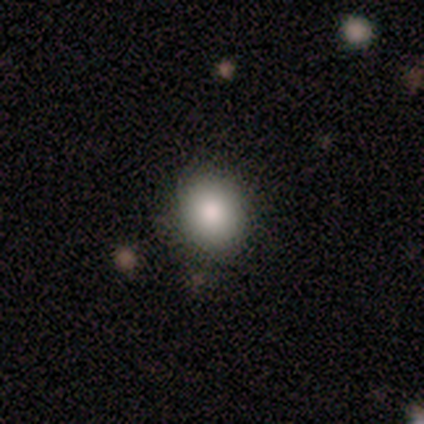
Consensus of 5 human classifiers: Smooth or featured? 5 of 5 (100%) said smooth. How rounded? 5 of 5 (100%) said round. Merging? 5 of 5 (100%) said none.